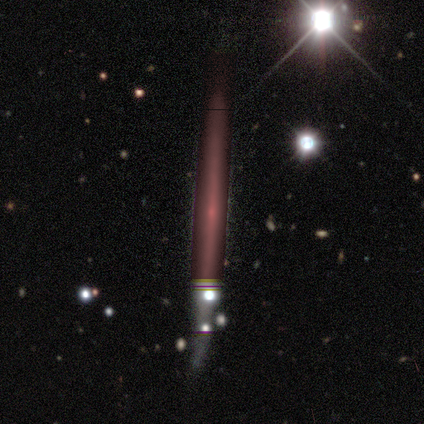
Morphology: type=featured or disk (60%); edge-on=yes (100%); edge-on bulge=none (67%); merging=none (100%).